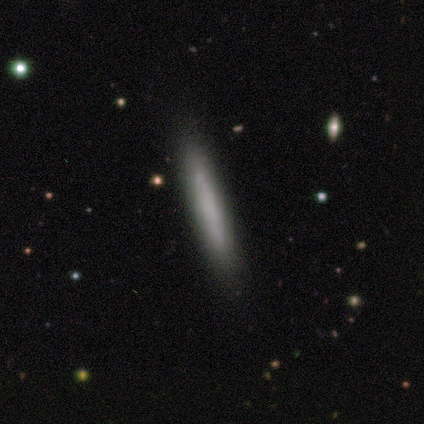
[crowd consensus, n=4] A smooth galaxy with no disk features (75%) that is cigar-shaped (100%). Merging: none (75%).